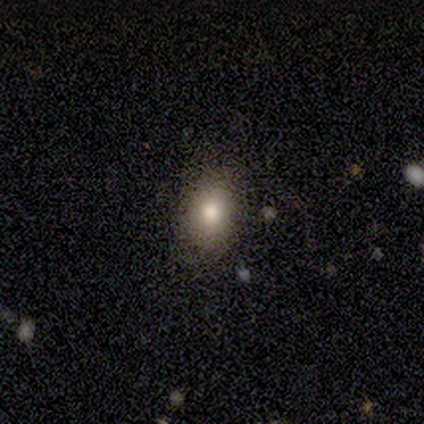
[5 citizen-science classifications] Q: Smooth or featured?
A: smooth (80%); runner-up: star or artifact (20%)
Q: How rounded?
A: in between (100%)
Q: Merging?
A: none (100%)